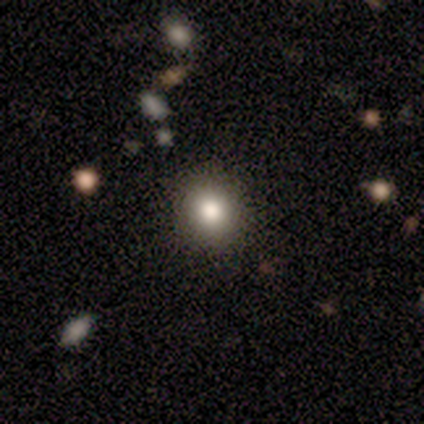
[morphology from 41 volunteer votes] This appears to be a smooth galaxy with no disk features (78%) that is round (88%). Merging: none (87%).